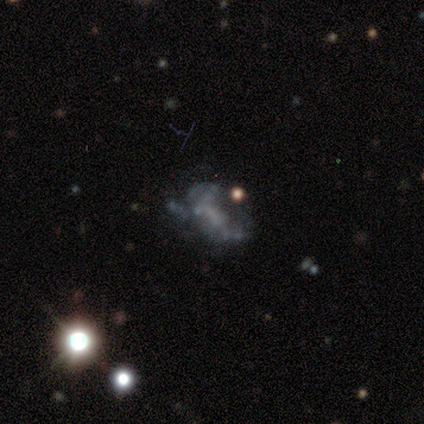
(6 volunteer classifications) Volunteers were most divided on "bar": no: 50%, strong: 25%, weak: 25%. More confident: edge-on disk — no (100%); spiral arms — no (100%); bulge size — none (100%); merging — none (75%); smooth or featured — featured or disk (67%).